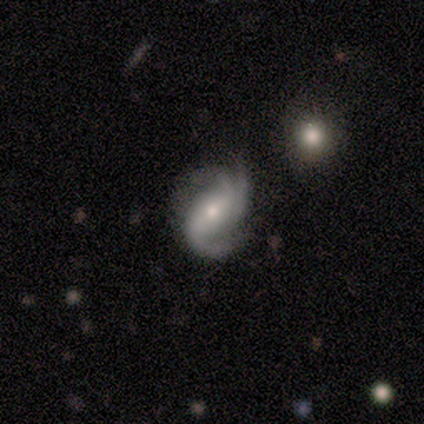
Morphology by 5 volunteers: smooth-or-featured: featured or disk: 100% | smooth: 0% | star or artifact: 0%
  disk-edge-on: no: 60% | yes: 40%
    bar: strong: 33% (tied) | weak: 33% (tied) | no: 33% (tied)
    has-spiral-arms: yes: 100% | no: 0%
      spiral-winding: medium: 67% | loose: 33% | tight: 0%
      spiral-arm-count: 3: 100% | 1: 0% | 2: 0% | 4: 0% | more than 4: 0% | can't tell: 0%
    bulge-size: small: 67% | moderate: 33% | dominant: 0% | large: 0% | none: 0%
  merging: none: 60% | major disturbance: 40% | minor disturbance: 0% | merger: 0%